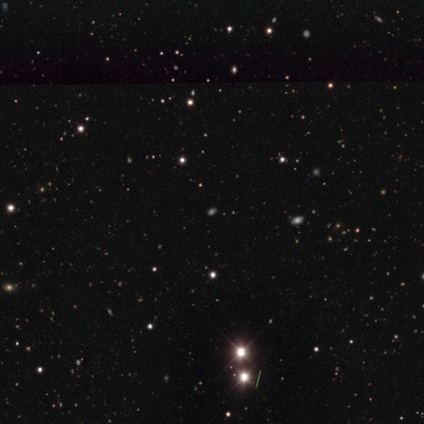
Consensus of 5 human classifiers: Smooth or featured? star or artifact (80%)